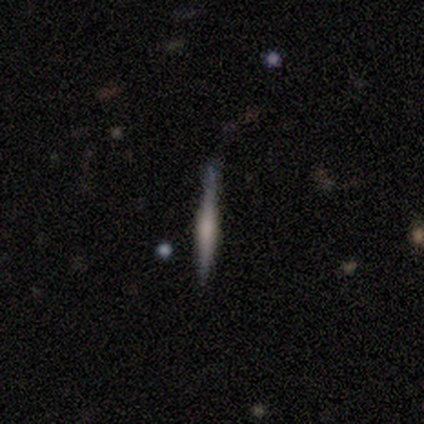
smooth_or_featured: featured or disk (p=0.60) [alt: smooth p=0.20]
disk_edge_on: yes (p=1.00)
edge_on_bulge: rounded (p=0.67) [alt: none p=0.33]
merging: none (p=0.75) [alt: minor disturbance p=0.25]